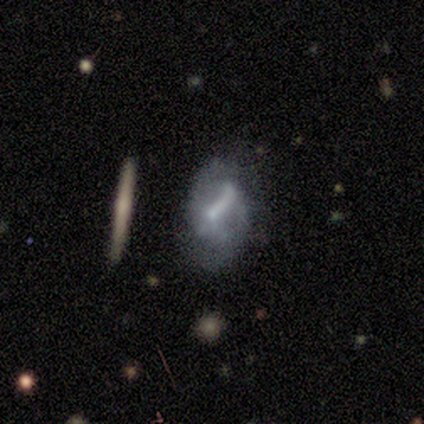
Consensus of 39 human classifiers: smooth-or-featured: featured or disk: 64% | smooth: 23% | star or artifact: 13%
  disk-edge-on: no: 76% | yes: 24%
    bar: weak: 37% | strong: 32% | no: 32%
    has-spiral-arms: yes: 58% | no: 42%
      spiral-winding: loose: 55% | medium: 36% | tight: 9%
      spiral-arm-count: 1: 45% | 2: 36% | can't tell: 18% | 3: 0% | 4: 0% | more than 4: 0%
    bulge-size: small: 58% | none: 21% | moderate: 16% | large: 5% | dominant: 0%
  merging: none: 56% | major disturbance: 24% | minor disturbance: 18% | merger: 3%